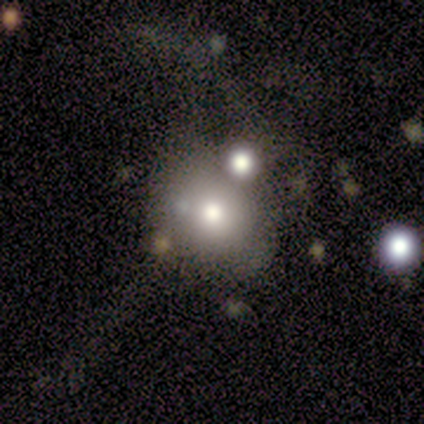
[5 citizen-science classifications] This is clearly a featured or disk galaxy (80%). It is clearly not viewed edge-on (100%). Bar: likely no (75%). Spiral arm pattern: clearly no (100%). Central bulge: possibly small (50%). Merging: likely none (60%).